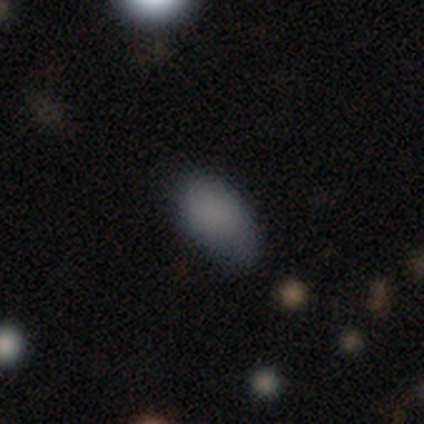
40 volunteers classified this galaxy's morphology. This is clearly a smooth galaxy (90%). How rounded: clearly in between (94%). Merging: possibly none (53%).